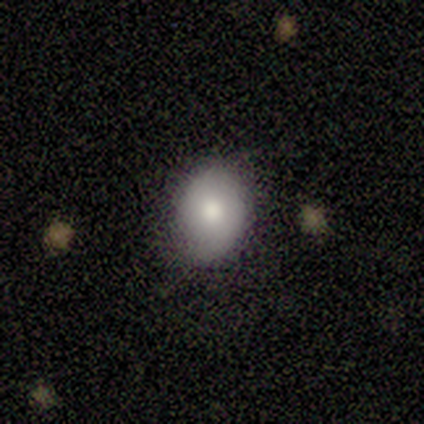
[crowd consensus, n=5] Volunteers were most divided on "merging": none: 60%, minor disturbance: 20%, merger: 20%, major disturbance: 0%. More confident: smooth or featured — smooth (80%); how rounded — in between (75%).